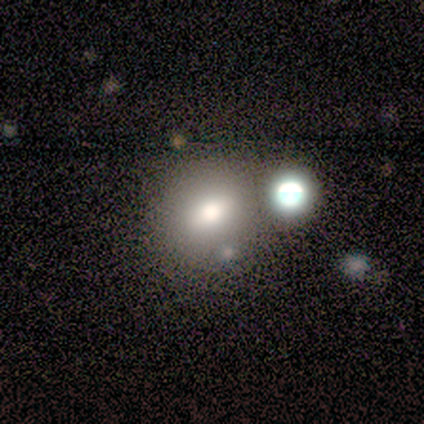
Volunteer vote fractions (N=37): Morphology: type=smooth (70%); roundness=round (50%); merging=none (45%).